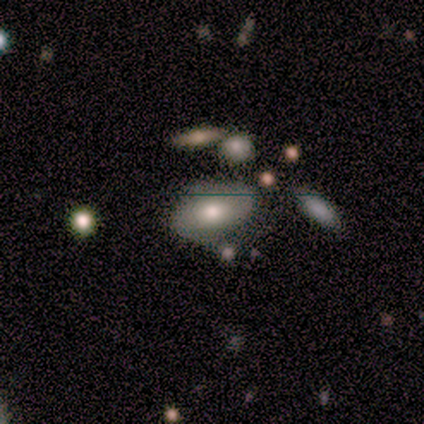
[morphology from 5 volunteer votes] Volunteers were most divided on "how rounded": in between: 75%, cigar-shaped: 25%, round: 0%. More confident: smooth or featured — smooth (80%); merging — none (80%).